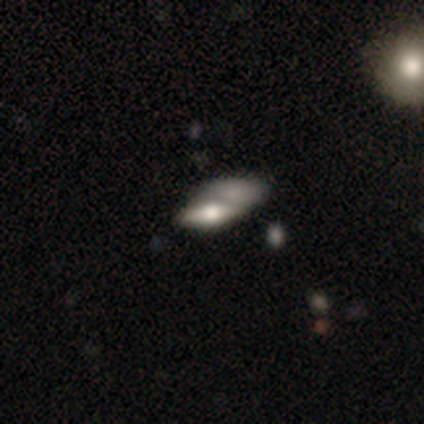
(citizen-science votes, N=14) This appears to be a smooth galaxy with no disk features (50%) that is in between round and cigar-shaped (86%). Merging: merger (54%).